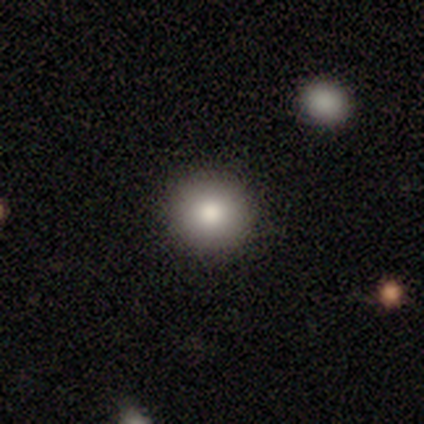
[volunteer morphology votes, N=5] type=smooth (60%); roundness=round (100%); merging=none (75%).